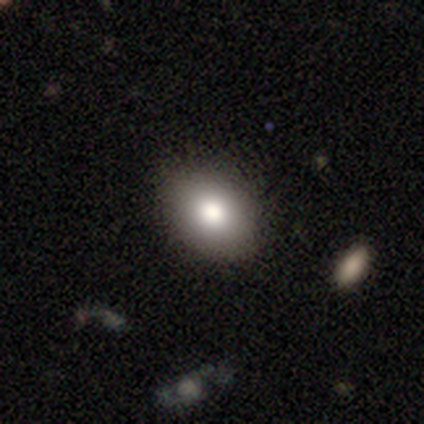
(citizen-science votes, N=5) Morphology: type=smooth (100%); roundness=in between (100%); merging=none (80%).